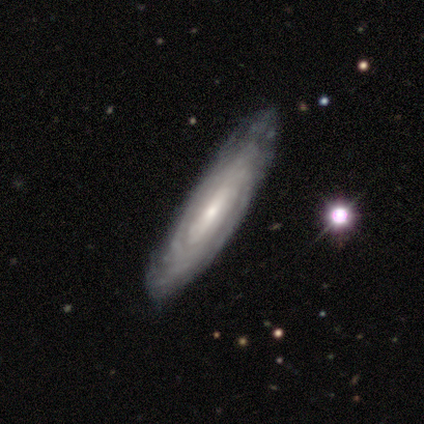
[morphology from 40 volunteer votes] This appears to be a featured or disk galaxy (85%) with no bar (52%), tight (83%) spiral arms (89%) and a small central bulge (56%). Merging: none (62%).